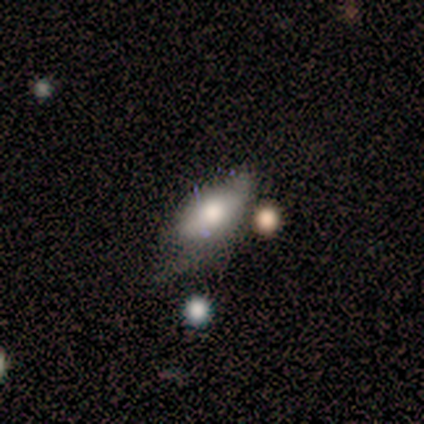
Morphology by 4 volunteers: Smooth or featured: smooth — 75% (star or artifact — 25%)
How rounded: in between — 100%
Merging: minor disturbance — 67% (none — 33%)